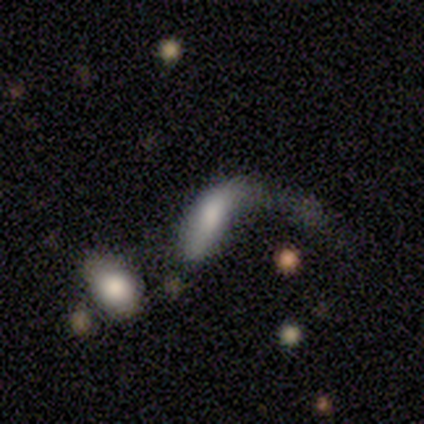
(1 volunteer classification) A smooth galaxy with no disk features (100%) that is in between round and cigar-shaped (100%). Merging: major disturbance (100%).